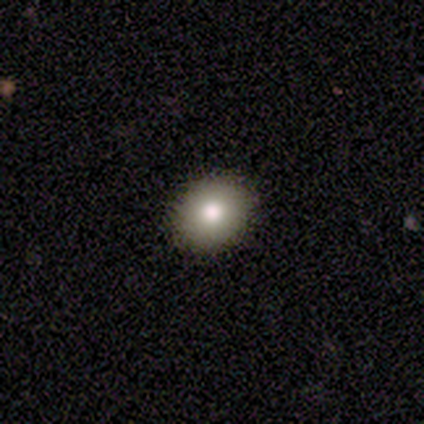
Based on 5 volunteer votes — smooth 40% (tied), featured or disk 40% (tied), star or artifact 20%. Down the decision tree: how rounded — round (50%, tied with in between); merging — none (100%).